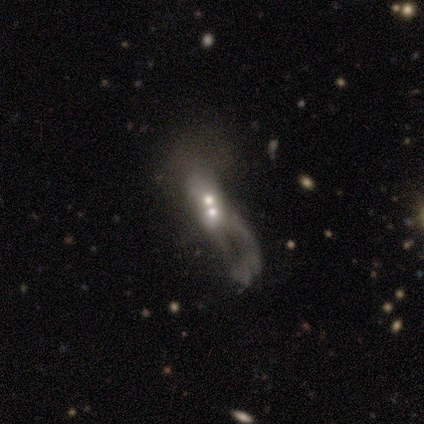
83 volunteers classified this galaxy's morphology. Smooth or featured? 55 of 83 (66%) said featured or disk. Edge-on disk? 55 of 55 (100%) said no. Bar? 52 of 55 (95%) said no. Spiral arms? 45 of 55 (82%) said no. Bulge size? 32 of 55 (58%) said moderate. Merging? 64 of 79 (81%) said merger.